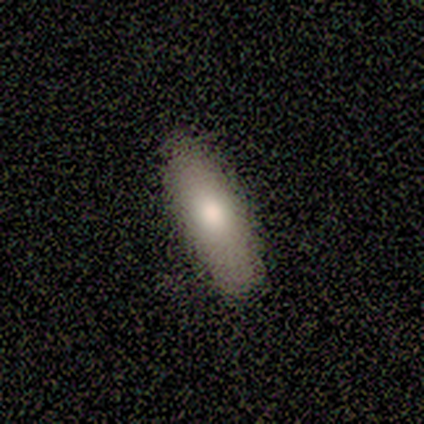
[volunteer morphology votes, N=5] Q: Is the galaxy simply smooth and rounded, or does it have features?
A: smooth — 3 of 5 (60%).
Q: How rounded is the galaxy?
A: cigar-shaped — 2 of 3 (67%).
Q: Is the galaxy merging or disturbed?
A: none — 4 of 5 (80%).